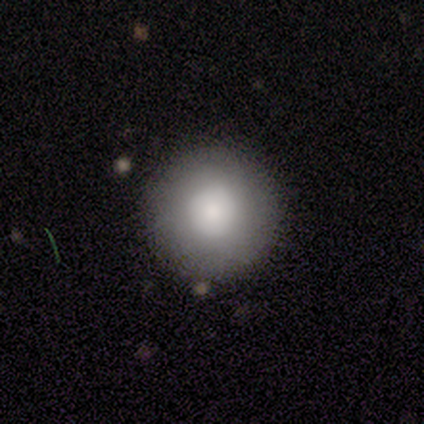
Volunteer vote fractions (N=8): Smooth or featured? smooth (88%)
How rounded? round (100%)
Merging? none (100%)